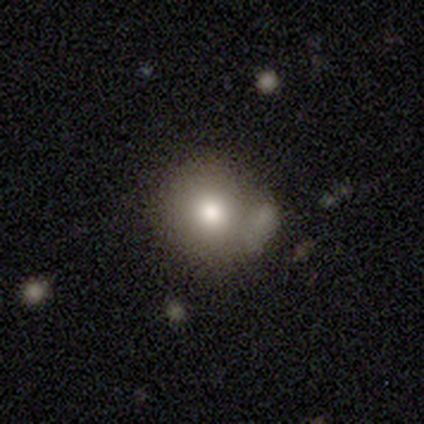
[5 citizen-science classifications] Smooth or featured: featured or disk — 60% (smooth — 20%)
Edge-on disk: no — 100%
Bar: no — 100%
Spiral arms: no — 100%
Bulge size: moderate — 100%
Merging: none — 50% (minor disturbance — 25%)